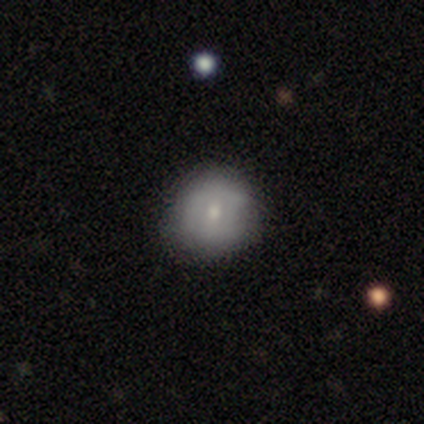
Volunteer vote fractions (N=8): A smooth galaxy with no disk features (88%) that is round (100%).

Vote fractions:
- Smooth or featured? smooth: 88% / featured or disk: 12% / star or artifact: 0%
- How rounded? round: 100% / in between: 0% / cigar-shaped: 0%
- Merging? none: 100% / minor disturbance: 0% / major disturbance: 0% / merger: 0%